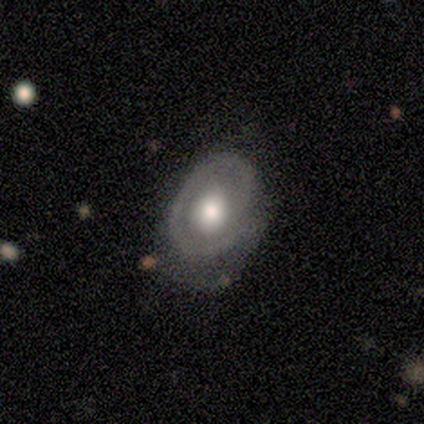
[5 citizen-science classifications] Morphology: type=featured or disk (80%); edge-on=no (100%); bar=no (100%); spiral arms=yes (100%); winding=loose (50%); arm count=1 (75%); bulge=moderate (75%); merging=none (40%, tied with major disturbance).